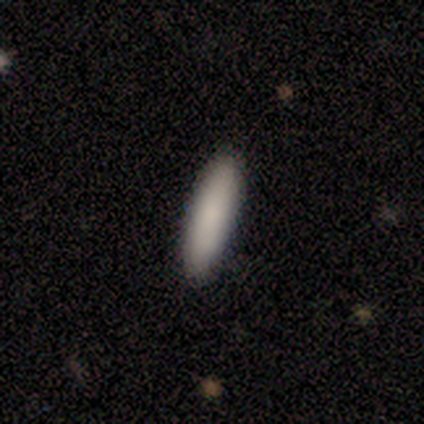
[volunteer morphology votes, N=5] This appears to be a smooth galaxy with no disk features (100%) that is in between round and cigar-shaped (60%). Merging: none (100%).